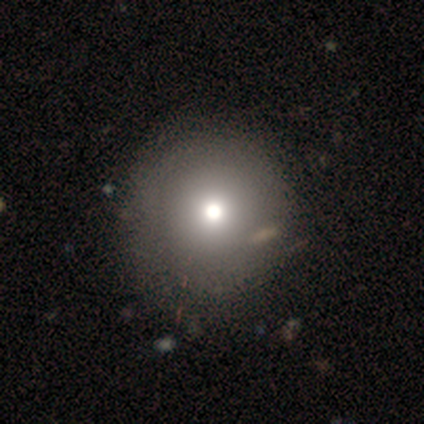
Smooth or featured: smooth — 80% (featured or disk — 20%)
How rounded: round — 100%
Merging: none — 100%